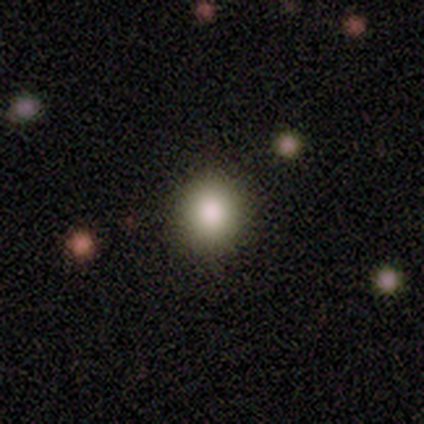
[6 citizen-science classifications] Smooth or featured?
  - smooth: 83% *
  - star or artifact: 17%
  - featured or disk: 0%
How rounded?
  - round: 100% *
  - in between: 0%
  - cigar-shaped: 0%
Merging?
  - none: 80% *
  - major disturbance: 20%
  - minor disturbance: 0%
  - merger: 0%